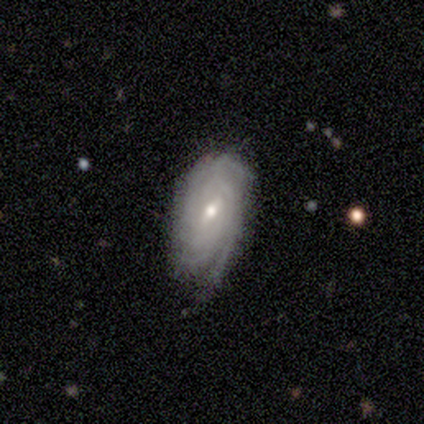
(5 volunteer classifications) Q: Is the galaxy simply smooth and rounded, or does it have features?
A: featured or disk — 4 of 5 (80%).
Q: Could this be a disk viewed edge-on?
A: no — 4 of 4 (100%).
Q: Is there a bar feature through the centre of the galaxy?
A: strong — 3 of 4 (75%).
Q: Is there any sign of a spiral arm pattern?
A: yes — 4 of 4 (100%).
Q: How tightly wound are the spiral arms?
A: tight — 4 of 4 (100%).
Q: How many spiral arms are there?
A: more than 4 — 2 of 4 (50%).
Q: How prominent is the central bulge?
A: moderate — 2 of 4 (50%, tied with small).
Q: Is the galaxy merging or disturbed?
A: none — 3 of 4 (75%).